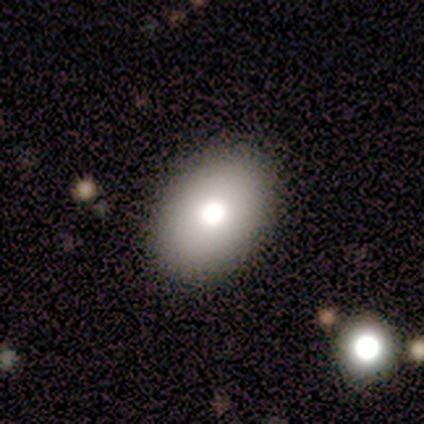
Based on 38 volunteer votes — smooth 74%, featured or disk 21%, star or artifact 5%. Down the decision tree: how rounded — in between (75%); merging — none (92%).